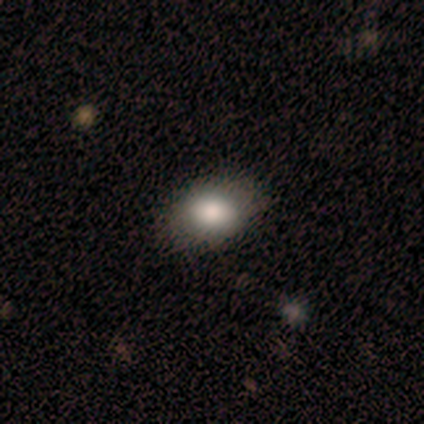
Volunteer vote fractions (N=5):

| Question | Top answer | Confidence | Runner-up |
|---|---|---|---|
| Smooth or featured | smooth | 60% | featured or disk (40%) |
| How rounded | in between | 100% | — |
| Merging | none | 100% | — |